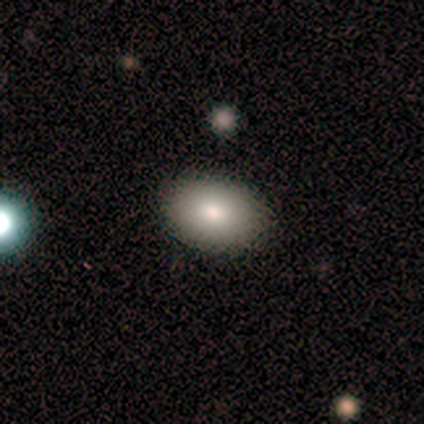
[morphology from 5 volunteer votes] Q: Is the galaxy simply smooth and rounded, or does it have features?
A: smooth — 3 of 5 (60%).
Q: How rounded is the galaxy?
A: in between — 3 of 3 (100%).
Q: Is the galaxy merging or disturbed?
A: none — 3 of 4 (75%).